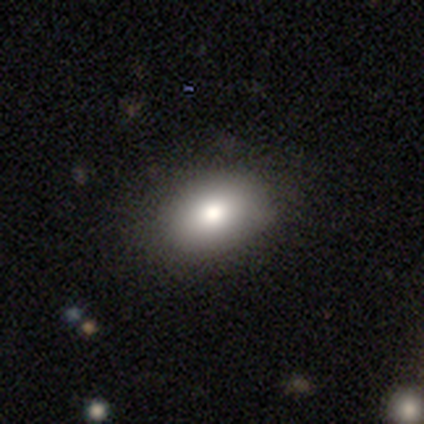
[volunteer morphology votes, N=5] Overall: smooth (80%). How rounded: in between (100%). Merging: none (100%).